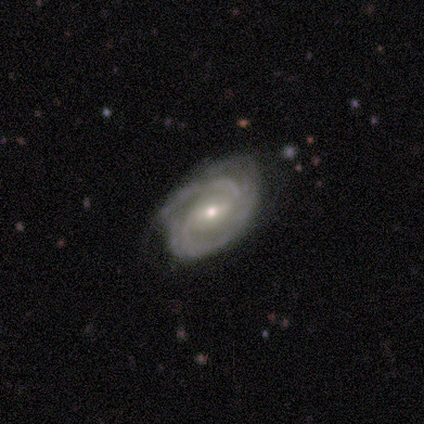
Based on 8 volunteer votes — smooth-or-featured: featured or disk: 100% | smooth: 0% | star or artifact: 0%
  disk-edge-on: no: 100% | yes: 0%
    bar: weak: 38% (tied) | no: 38% (tied) | strong: 25%
    has-spiral-arms: yes: 100% | no: 0%
      spiral-winding: tight: 50% (tied) | medium: 50% (tied) | loose: 0%
      spiral-arm-count: 2: 75% | 3: 12% | can't tell: 12% | 1: 0% | 4: 0% | more than 4: 0%
    bulge-size: small: 62% | moderate: 38% | dominant: 0% | large: 0% | none: 0%
  merging: none: 75% | minor disturbance: 25% | major disturbance: 0% | merger: 0%